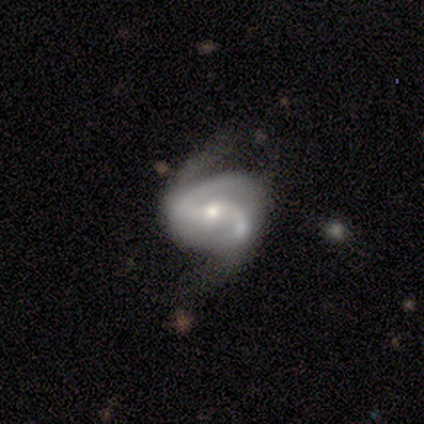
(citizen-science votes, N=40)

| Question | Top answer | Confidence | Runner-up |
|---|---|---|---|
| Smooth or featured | featured or disk | 90% | smooth (8%) |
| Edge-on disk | no | 100% | — |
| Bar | weak | 50% | no (33%) |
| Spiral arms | yes | 92% | no (8%) |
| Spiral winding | medium | 52% | loose (36%) |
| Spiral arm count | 2 | 61% | 3 (18%) |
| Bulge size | small | 58% | moderate (36%) |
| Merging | none | 36% | major disturbance (31%) |